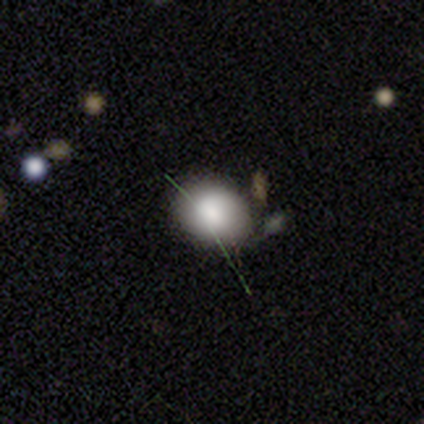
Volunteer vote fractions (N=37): Smooth or featured? 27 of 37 (73%) said smooth. How rounded? 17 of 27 (63%) said round. Merging? 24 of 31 (77%) said none.